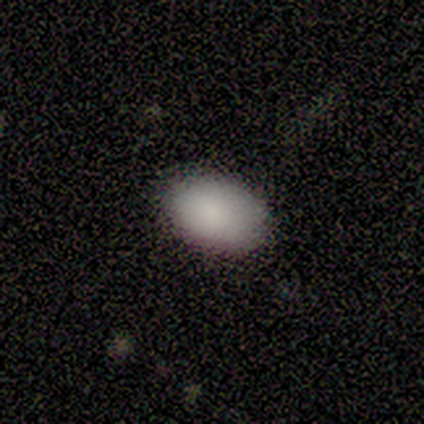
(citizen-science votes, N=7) Volunteers were most divided on "how rounded": in between: 67%, round: 33%, cigar-shaped: 0%. More confident: merging — none (100%); smooth or featured — smooth (86%).